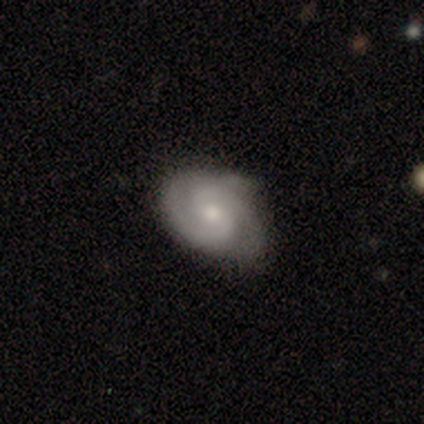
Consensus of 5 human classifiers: Morphology: type=featured or disk (60%); edge-on=no (100%); bar=weak (67%); spiral arms=yes (67%); winding=tight (50%, tied with medium); arm count=2 (100%); bulge=moderate (67%); merging=none (80%).